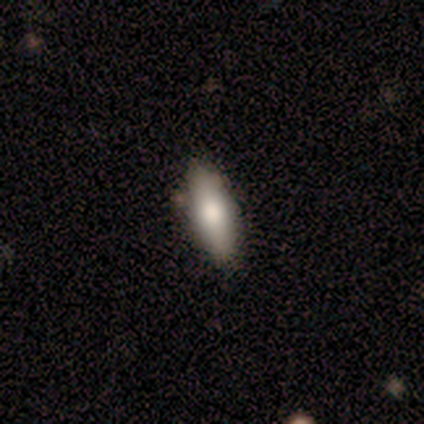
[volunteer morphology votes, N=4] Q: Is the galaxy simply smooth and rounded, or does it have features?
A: smooth — 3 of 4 (75%).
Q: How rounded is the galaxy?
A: cigar-shaped — 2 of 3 (67%).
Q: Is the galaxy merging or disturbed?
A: none — 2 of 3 (67%).